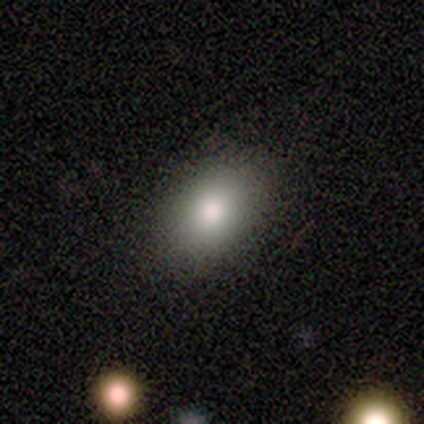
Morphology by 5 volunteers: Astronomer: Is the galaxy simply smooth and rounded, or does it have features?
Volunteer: smooth — 100%.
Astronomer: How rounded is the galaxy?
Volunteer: in between — 80%.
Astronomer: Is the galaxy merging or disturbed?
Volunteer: none — 100%.